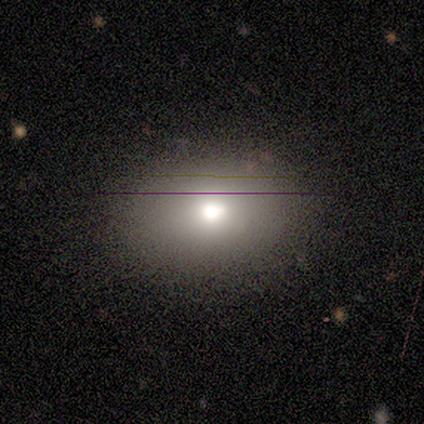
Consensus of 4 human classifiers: Volunteers were most divided on "smooth or featured": smooth: 50%, featured or disk: 25%, star or artifact: 25%. More confident: how rounded — in between (100%); merging — none (100%).